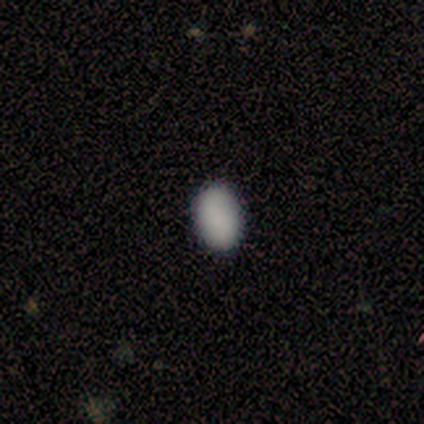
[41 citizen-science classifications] smooth_or_featured: smooth (p=0.95) [alt: star or artifact p=0.05]
how_rounded: in between (p=0.85) [alt: round p=0.15]
merging: none (p=0.95) [alt: minor disturbance p=0.05]